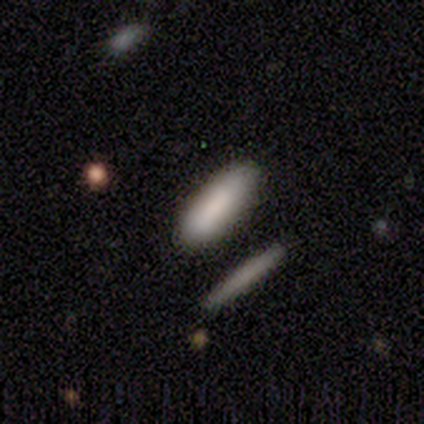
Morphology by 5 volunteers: Smooth or featured? smooth (80%)
How rounded? in between (75%)
Merging? none (100%)